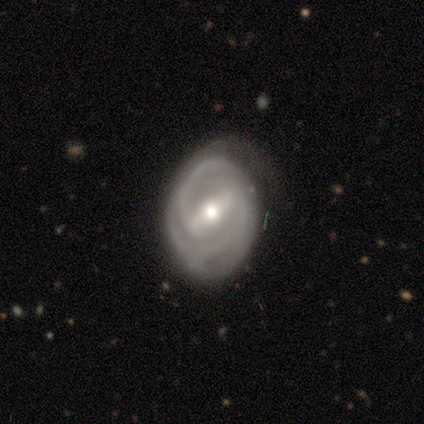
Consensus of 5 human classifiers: Smooth or featured? 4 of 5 (80%) said featured or disk. Edge-on disk? 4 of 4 (100%) said no. Bar? 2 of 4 (50%, tied with weak) said strong. Spiral arms? 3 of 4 (75%) said yes. Spiral winding? 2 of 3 (67%) said medium. Spiral arm count? 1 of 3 (33%, tied with 3 and can't tell) said 2. Bulge size? 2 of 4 (50%, tied with small) said moderate. Merging? 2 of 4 (50%) said none.